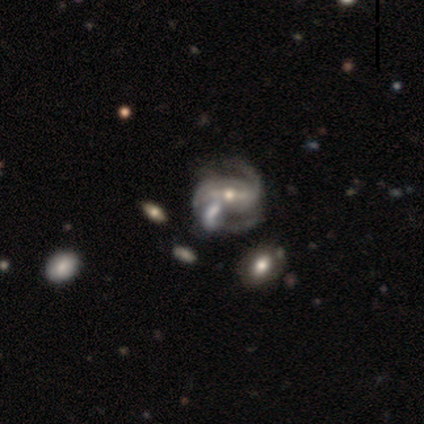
Q: Smooth or featured?
A: featured or disk (97%); runner-up: star or artifact (3%)
Q: Edge-on disk?
A: no (92%); runner-up: yes (8%)
Q: Bar?
A: strong (63%); runner-up: weak (23%)
Q: Spiral arms?
A: yes (97%); runner-up: no (3%)
Q: Spiral winding?
A: medium (50%); runner-up: tight (35%)
Q: Spiral arm count?
A: 2 (76%); runner-up: can't tell (12%)
Q: Bulge size?
A: moderate (60%); runner-up: small (40%)
Q: Merging?
A: none (45%); runner-up: merger (24%)